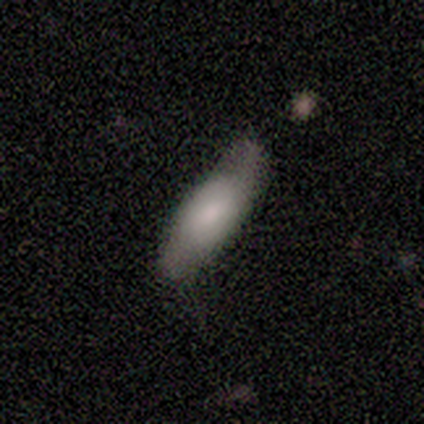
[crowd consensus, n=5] Overall: smooth (60%; featured or disk 40%). How rounded: in between (67%; cigar-shaped 33%). Merging: minor disturbance (60%; none 40%).